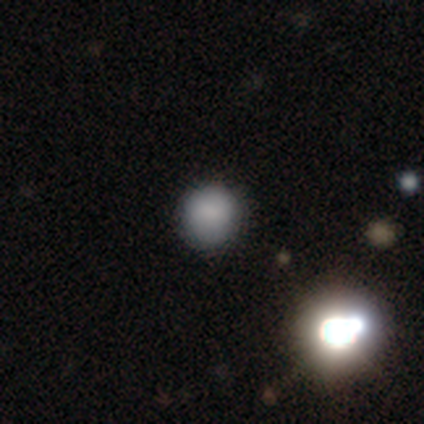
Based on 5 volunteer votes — This is clearly a smooth galaxy (80%). How rounded: likely round (75%). Merging: likely none (75%).